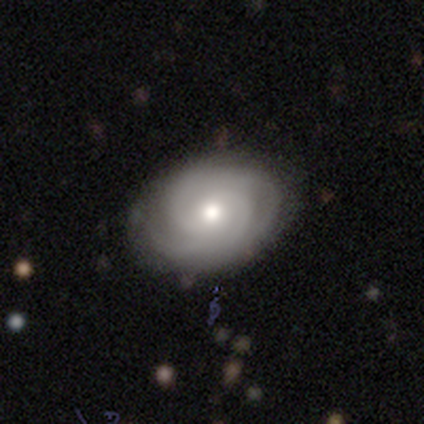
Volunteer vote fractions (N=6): Smooth or featured?
  - featured or disk: 83% *
  - smooth: 17%
  - star or artifact: 0%
Edge-on disk?
  - no: 80% *
  - yes: 20%
Bar?
  - no: 75% *
  - weak: 25%
  - strong: 0%
Spiral arms?
  - yes: 100% *
  - no: 0%
Spiral winding?
  - tight: 50% * (tied)
  - medium: 50% * (tied)
  - loose: 0%
Spiral arm count?
  - 1: 25% * (tied)
  - 2: 25% * (tied)
  - 3: 25% * (tied)
  - can't tell: 25% * (tied)
  - 4: 0%
  - more than 4: 0%
Bulge size?
  - moderate: 75% *
  - small: 25%
  - dominant: 0%
  - large: 0%
  - none: 0%
Merging?
  - none: 50% * (tied)
  - minor disturbance: 50% * (tied)
  - major disturbance: 0%
  - merger: 0%